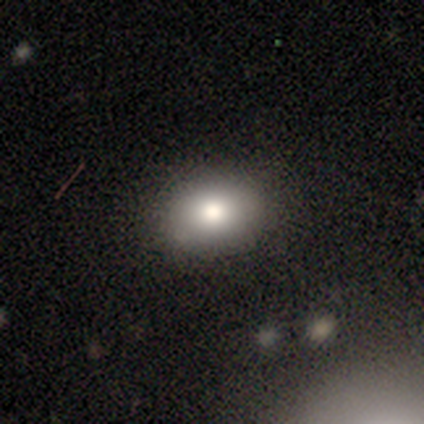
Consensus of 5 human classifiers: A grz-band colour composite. It shows a smooth galaxy with no disk features (80%) that is in between round and cigar-shaped (100%). Merging: none (100%).